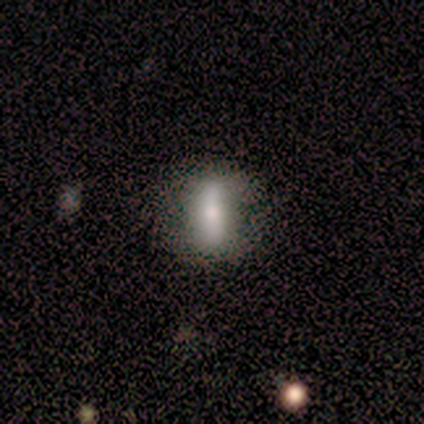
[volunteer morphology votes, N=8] Smooth or featured: smooth — 75% (featured or disk — 12%)
How rounded: cigar-shaped — 67% (in between — 33%)
Merging: none — 100%